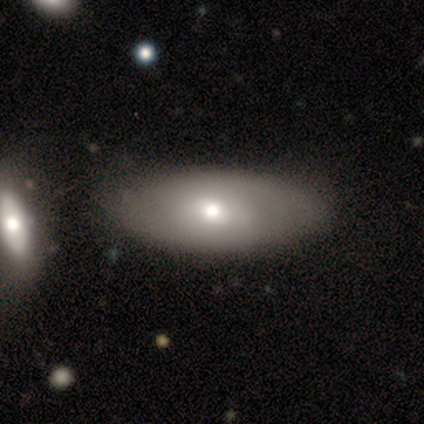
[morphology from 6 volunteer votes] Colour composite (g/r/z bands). It shows a smooth galaxy with no disk features (50%, tied with featured or disk) that is in between round and cigar-shaped (100%). Merging: none (100%).